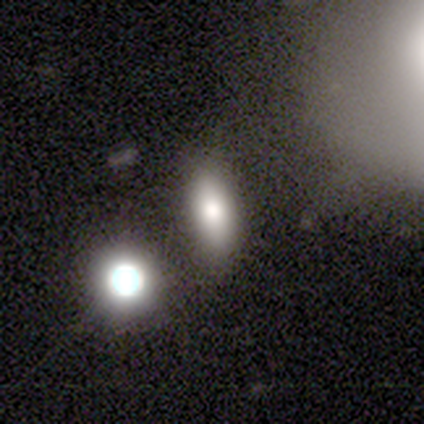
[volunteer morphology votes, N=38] A smooth galaxy with no disk features (68%) that is in between round and cigar-shaped (69%).

Vote fractions:
- Smooth or featured? smooth: 68% / featured or disk: 16% / star or artifact: 16%
- How rounded? in between: 69% / round: 15% / cigar-shaped: 15%
- Merging? none: 59% / minor disturbance: 28% / merger: 12% / major disturbance: 0%